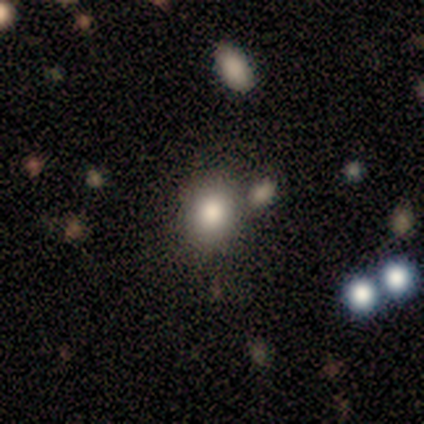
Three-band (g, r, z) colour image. It shows a smooth galaxy with no disk features (83%) that is round (59%). Merging: none (69%).